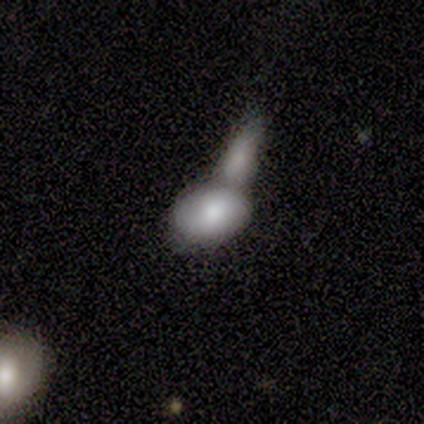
smooth 75%, star or artifact 25%, featured or disk 0%. Down the decision tree: how rounded — in between (67%); merging — merger (67%).